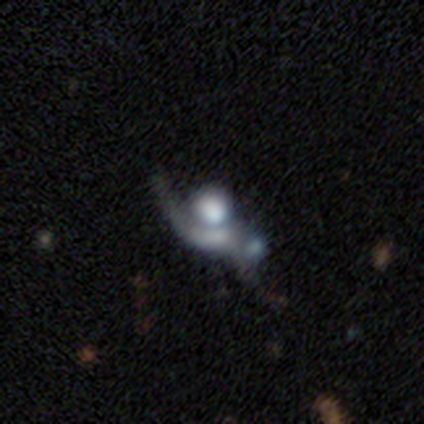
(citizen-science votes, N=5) Overall: featured or disk (60%; smooth 20%). Edge-on disk: no (100%). Bar: no (100%). Spiral arms: no (100%). Bulge size: none (67%; dominant 33%). Merging: major disturbance (50%, tied with merger).